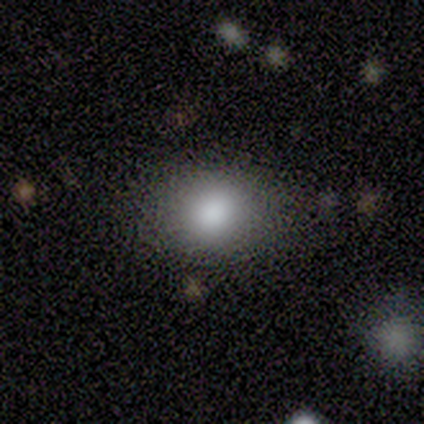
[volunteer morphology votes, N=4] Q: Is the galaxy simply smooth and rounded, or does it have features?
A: smooth — 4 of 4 (100%).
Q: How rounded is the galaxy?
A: round — 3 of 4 (75%).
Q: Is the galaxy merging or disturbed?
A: none — 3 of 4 (75%).